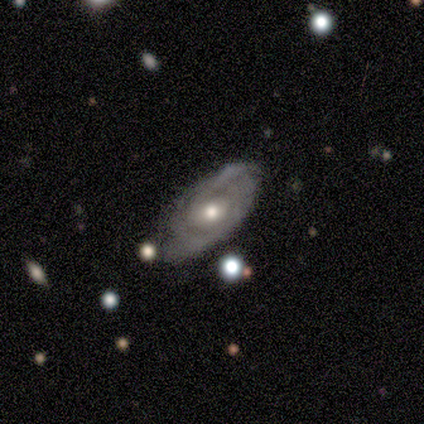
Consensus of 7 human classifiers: smooth-or-featured: featured or disk: 100% | smooth: 0% | star or artifact: 0%
  disk-edge-on: no: 100% | yes: 0%
    bar: no: 100% | strong: 0% | weak: 0%
    has-spiral-arms: yes: 71% | no: 29%
      spiral-winding: medium: 60% | tight: 40% | loose: 0%
      spiral-arm-count: can't tell: 60% | 2: 40% | 1: 0% | 3: 0% | 4: 0% | more than 4: 0%
    bulge-size: moderate: 43% (tied) | small: 43% (tied) | large: 14% | dominant: 0% | none: 0%
  merging: none: 71% | minor disturbance: 14% | major disturbance: 14% | merger: 0%